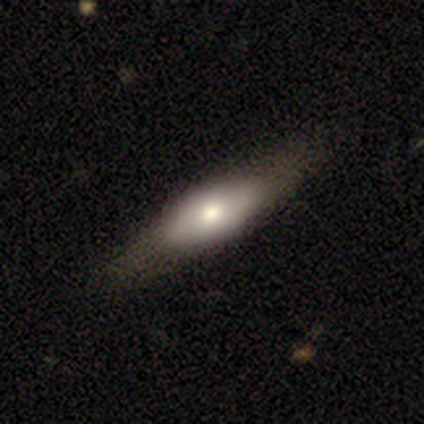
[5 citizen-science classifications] Overall: smooth (80%). How rounded: in between (50%, tied with cigar-shaped). Merging: minor disturbance (60%; none 40%).